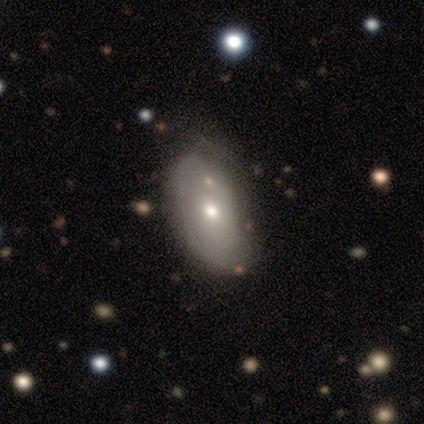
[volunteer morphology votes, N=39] This appears to be a smooth galaxy with no disk features (67%) that is in between round and cigar-shaped (81%). Merging: none (49%).